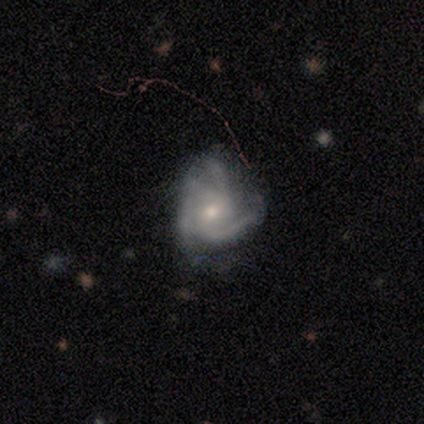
smooth-or-featured: featured or disk: 82% | star or artifact: 15% | smooth: 3%
  disk-edge-on: no: 94% | yes: 6%
    bar: no: 63% | weak: 33% | strong: 3%
    has-spiral-arms: yes: 93% | no: 7%
      spiral-winding: medium: 57% | tight: 39% | loose: 4%
      spiral-arm-count: 3: 43% | 4: 29% | 2: 14% | can't tell: 14% | 1: 0% | more than 4: 0%
    bulge-size: small: 53% | moderate: 43% | none: 3% | dominant: 0% | large: 0%
  merging: none: 48% | minor disturbance: 30% | major disturbance: 18% | merger: 3%